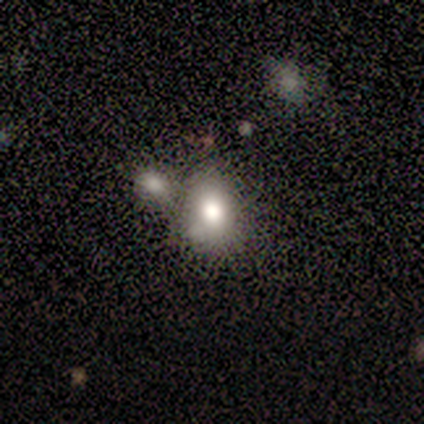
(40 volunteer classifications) smooth-or-featured: smooth: 75% | featured or disk: 12% | star or artifact: 12%
  how-rounded: in between: 70% | round: 27% | cigar-shaped: 3%
  merging: none: 49% | merger: 29% | minor disturbance: 23% | major disturbance: 0%